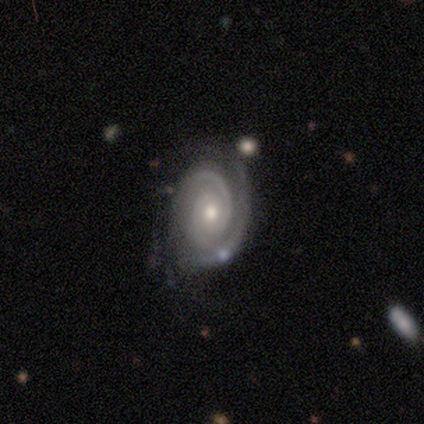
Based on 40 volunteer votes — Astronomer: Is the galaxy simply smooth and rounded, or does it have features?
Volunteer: featured or disk — 95%.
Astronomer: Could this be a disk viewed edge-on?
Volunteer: no — 100%.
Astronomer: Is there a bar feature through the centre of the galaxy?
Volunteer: no — 66%.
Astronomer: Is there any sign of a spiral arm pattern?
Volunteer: yes — 100%.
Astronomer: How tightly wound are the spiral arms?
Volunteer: tight — 63%.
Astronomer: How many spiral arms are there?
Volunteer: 2 — 58%.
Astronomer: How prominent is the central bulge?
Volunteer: small — 55% (runner-up: moderate, 39%).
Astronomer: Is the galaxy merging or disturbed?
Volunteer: none — 68%.